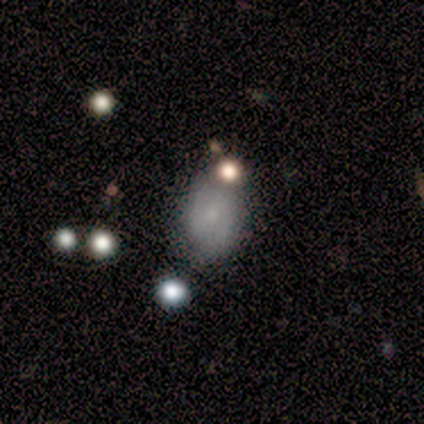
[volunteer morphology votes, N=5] smooth_or_featured: smooth (p=0.60) [alt: featured or disk p=0.20]
how_rounded: in between (p=1.00)
merging: none (p=0.75) [alt: merger p=0.25]